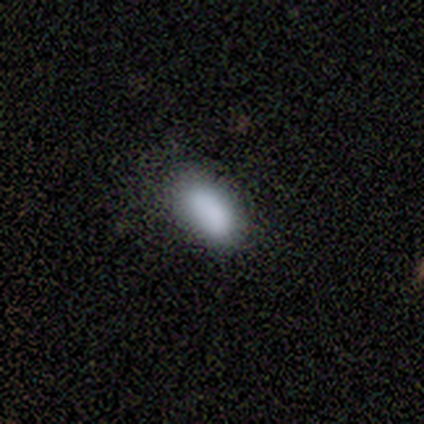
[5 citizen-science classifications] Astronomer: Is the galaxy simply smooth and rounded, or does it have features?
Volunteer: smooth — 100%.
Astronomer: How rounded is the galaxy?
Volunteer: in between — 100%.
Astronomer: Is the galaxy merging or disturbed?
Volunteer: none — 80%.